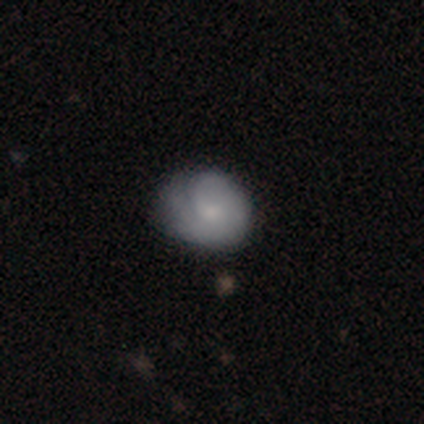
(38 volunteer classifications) Smooth or featured?
  - smooth: 61% *
  - featured or disk: 34%
  - star or artifact: 5%
How rounded?
  - round: 74% *
  - in between: 26%
  - cigar-shaped: 0%
Merging?
  - none: 56% *
  - minor disturbance: 33%
  - major disturbance: 8%
  - merger: 3%